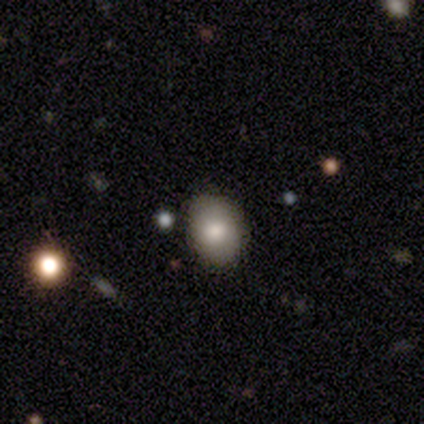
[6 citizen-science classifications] smooth-or-featured: smooth: 67% | featured or disk: 17% | star or artifact: 17%
  how-rounded: in between: 75% | round: 25% | cigar-shaped: 0%
  merging: none: 80% | minor disturbance: 20% | major disturbance: 0% | merger: 0%